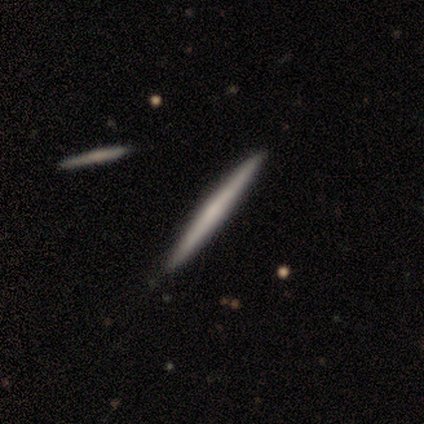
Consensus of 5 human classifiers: Smooth or featured: featured or disk — 80% (smooth — 20%)
Edge-on disk: yes — 100%
Edge-on bulge: none — 100%
Merging: none — 100%